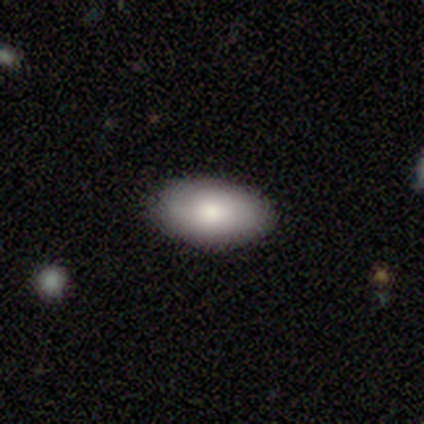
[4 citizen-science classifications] smooth 75%, featured or disk 25%, star or artifact 0%. Down the decision tree: how rounded — in between (100%); merging — none (75%).